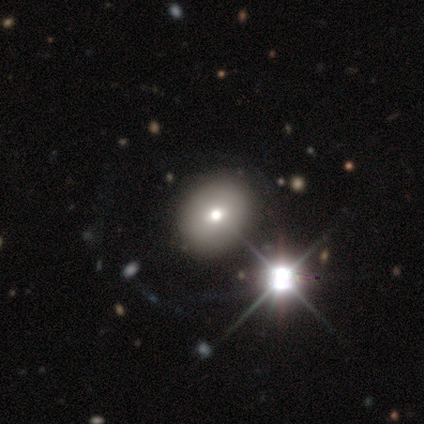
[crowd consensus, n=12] Overall: smooth (75%). How rounded: in between (67%; round 33%). Merging: none (100%).